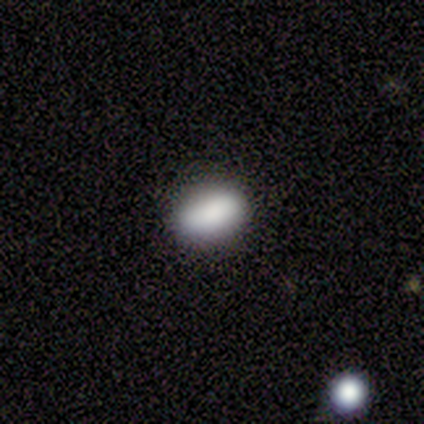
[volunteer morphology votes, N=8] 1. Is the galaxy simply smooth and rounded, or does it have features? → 88% smooth, 12% star or artifact, 0% featured or disk.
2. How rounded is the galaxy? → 86% in between, 14% cigar-shaped, 0% round.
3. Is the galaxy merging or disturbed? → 100% none, 0% minor disturbance, 0% major disturbance, 0% merger.